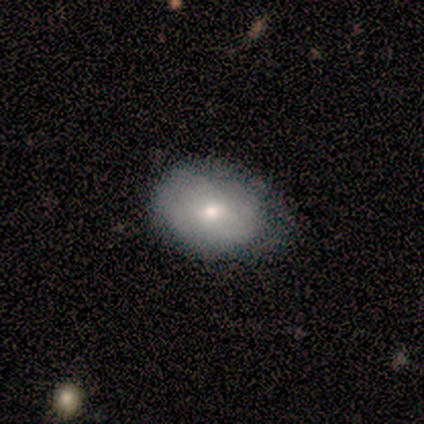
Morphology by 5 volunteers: smooth 80%, featured or disk 20%, star or artifact 0%. Down the decision tree: how rounded — in between (75%); merging — none (80%).